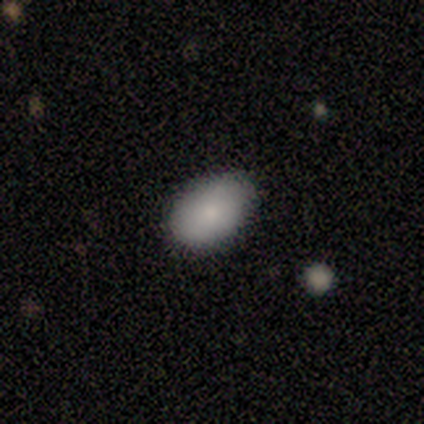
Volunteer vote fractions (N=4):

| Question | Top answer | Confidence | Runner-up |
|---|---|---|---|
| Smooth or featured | smooth | 100% | — |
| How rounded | in between | 75% | round (25%) |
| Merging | none | 75% | minor disturbance (25%) |